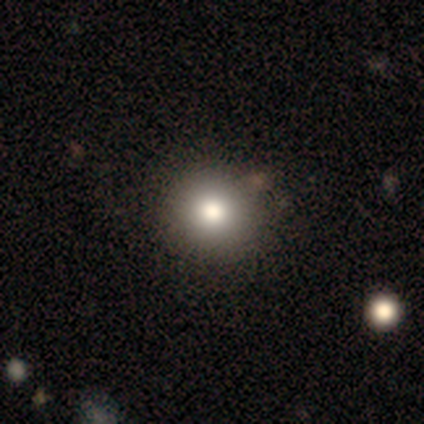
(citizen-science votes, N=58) Q: Smooth or featured?
A: smooth (83%); runner-up: featured or disk (12%)
Q: How rounded?
A: round (96%); runner-up: in between (4%)
Q: Merging?
A: none (98%); runner-up: merger (2%)